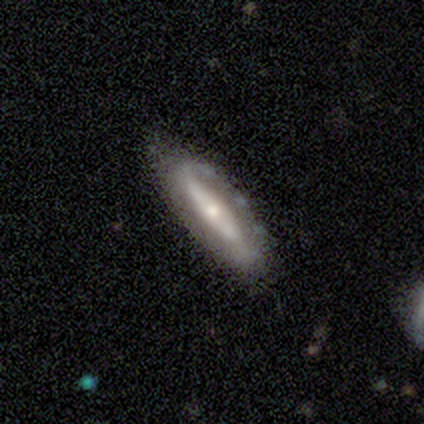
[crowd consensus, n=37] Smooth or featured?
  - featured or disk: 70% *
  - smooth: 27%
  - star or artifact: 3%
Edge-on disk?
  - no: 73% *
  - yes: 27%
Bar?
  - no: 58% *
  - strong: 21%
  - weak: 21%
Spiral arms?
  - yes: 58% *
  - no: 42%
Spiral winding?
  - medium: 45% *
  - tight: 27%
  - loose: 27%
Spiral arm count?
  - 2: 64% *
  - 1: 18%
  - can't tell: 18%
  - 3: 0%
  - 4: 0%
  - more than 4: 0%
Bulge size?
  - moderate: 53% *
  - small: 37%
  - large: 11%
  - dominant: 0%
  - none: 0%
Merging?
  - none: 64% *
  - minor disturbance: 28%
  - major disturbance: 6%
  - merger: 3%